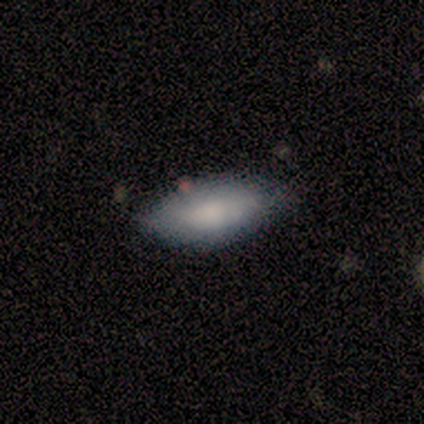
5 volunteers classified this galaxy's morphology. smooth-or-featured: smooth: 100% | featured or disk: 0% | star or artifact: 0%
  how-rounded: in between: 100% | round: 0% | cigar-shaped: 0%
  merging: none: 60% | minor disturbance: 40% | major disturbance: 0% | merger: 0%